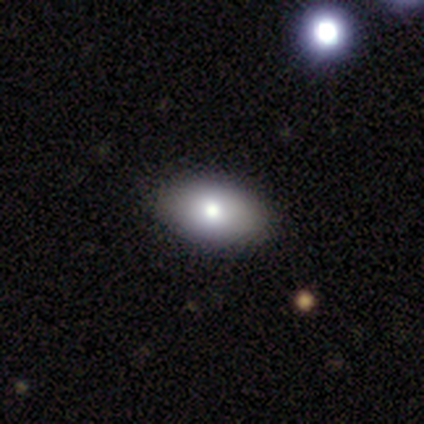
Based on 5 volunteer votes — This is clearly a smooth galaxy (80%). How rounded: clearly in between (100%). Merging: clearly none (80%).